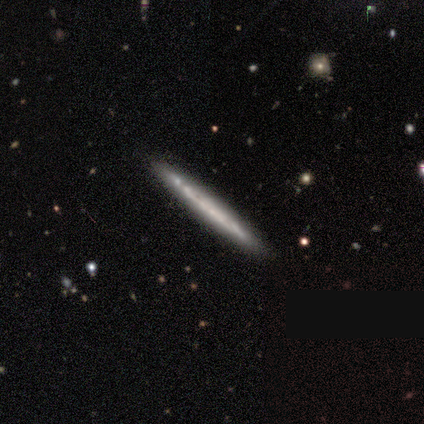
Smooth or featured: featured or disk — 60% (smooth — 40%)
Edge-on disk: yes — 100%
Edge-on bulge: none — 100%
Merging: none — 100%